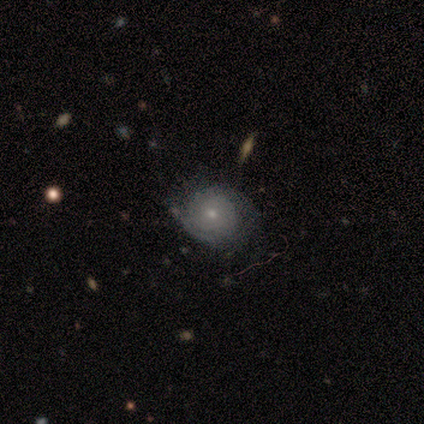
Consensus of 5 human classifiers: A featured or disk galaxy (80%) with a weak bar (50%, tied with no), 2 (67%) tight (100%) spiral arms (75%) and a small central bulge (75%).

Vote fractions:
- Smooth or featured? featured or disk: 80% / smooth: 20% / star or artifact: 0%
- Edge-on disk? no: 100% / yes: 0%
- Bar? weak: 50% (tied) / no: 50% (tied) / strong: 0%
- Spiral arms? yes: 75% / no: 25%
- Spiral winding? tight: 100% / medium: 0% / loose: 0%
- Spiral arm count? 2: 67% / can't tell: 33% / 1: 0% / 3: 0% / 4: 0% / more than 4: 0%
- Bulge size? small: 75% / moderate: 25% / dominant: 0% / large: 0% / none: 0%
- Merging? none: 40% (tied) / major disturbance: 40% (tied) / minor disturbance: 20% / merger: 0%